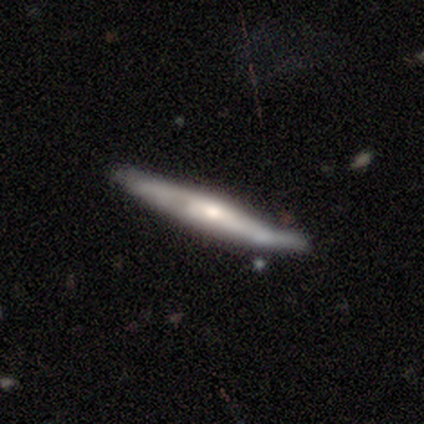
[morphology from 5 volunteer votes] This appears to be a featured or disk galaxy (60%) viewed edge-on (67%) with a rounded central bulge (100%). Merging: none (80%).